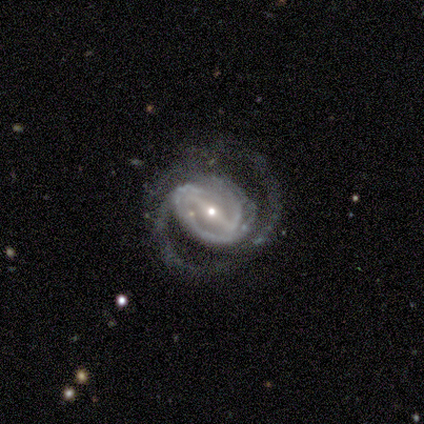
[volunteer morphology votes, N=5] Overall: featured or disk (100%). Edge-on disk: no (80%). Bar: strong (100%). Spiral arms: yes (100%). Spiral arm count: 2 (50%; 1 25%). Spiral winding: loose (50%; tight 25%). Bulge size: small (100%). Merging: none (80%).